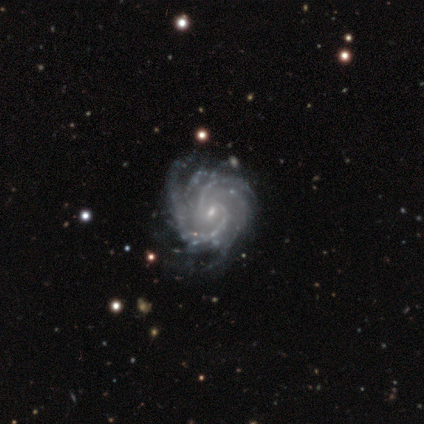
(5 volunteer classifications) Smooth or featured: featured or disk — 100%
Edge-on disk: no — 100%
Bar: no — 60% (strong — 20%)
Spiral arms: yes — 100%
Spiral winding: tight — 60% (medium — 40%)
Spiral arm count: 4 — 60% (2 — 20%)
Bulge size: small — 80% (moderate — 20%)
Merging: none — 60% (minor disturbance — 40%)